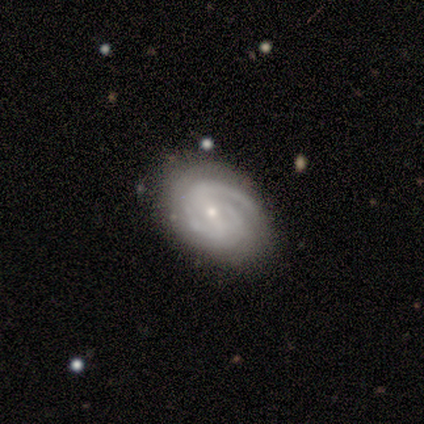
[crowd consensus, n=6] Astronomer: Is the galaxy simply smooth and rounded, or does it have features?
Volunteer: featured or disk — 100%.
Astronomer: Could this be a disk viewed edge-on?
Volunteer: no — 100%.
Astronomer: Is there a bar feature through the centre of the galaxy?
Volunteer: weak — 50%, tied with no at 50%.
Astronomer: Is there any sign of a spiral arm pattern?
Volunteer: yes — 100%.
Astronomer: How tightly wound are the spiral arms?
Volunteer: tight — 83%.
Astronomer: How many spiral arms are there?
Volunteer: can't tell — 50% (runner-up: 2, 33%).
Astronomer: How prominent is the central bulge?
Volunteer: small — 100%.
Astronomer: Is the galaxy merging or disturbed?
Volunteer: none — 100%.